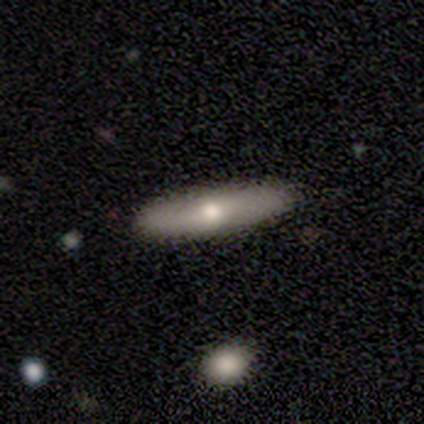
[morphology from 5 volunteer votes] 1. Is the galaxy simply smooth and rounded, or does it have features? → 60% featured or disk, 40% smooth, 0% star or artifact.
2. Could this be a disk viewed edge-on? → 67% yes, 33% no.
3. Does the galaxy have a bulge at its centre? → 100% rounded, 0% boxy, 0% none.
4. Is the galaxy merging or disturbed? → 100% none, 0% minor disturbance, 0% major disturbance, 0% merger.